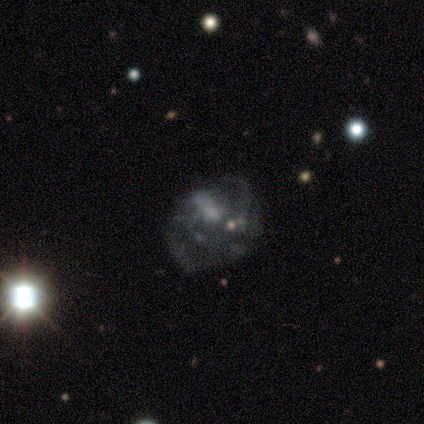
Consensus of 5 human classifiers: This appears to be a featured or disk galaxy (80%) with a weak bar (50%, tied with no), 2 (100%) tight (50%, tied with loose) spiral arms (50%, tied with no) and a small central bulge (75%). Merging: none (40%).